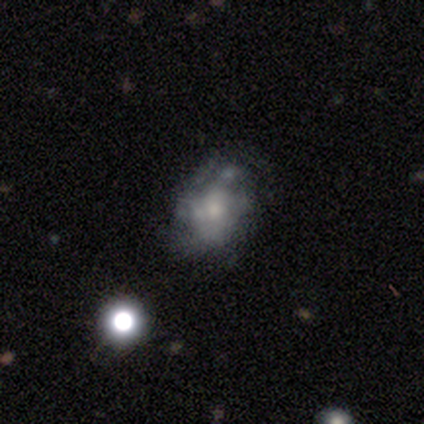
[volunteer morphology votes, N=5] Overall: star or artifact (60%; smooth 20%).